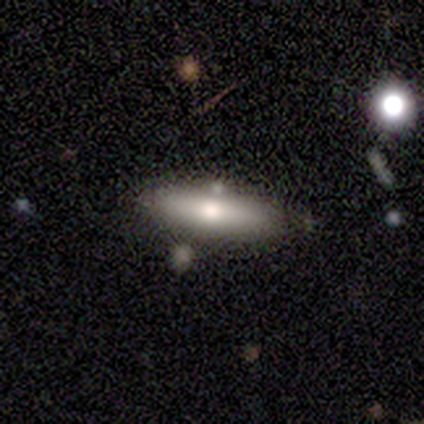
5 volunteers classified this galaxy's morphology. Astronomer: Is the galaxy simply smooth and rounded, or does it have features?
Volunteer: featured or disk — 60% (runner-up: smooth, 40%).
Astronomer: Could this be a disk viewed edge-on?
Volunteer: no — 67%.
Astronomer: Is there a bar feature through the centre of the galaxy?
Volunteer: no — 100%.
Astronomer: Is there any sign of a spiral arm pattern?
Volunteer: no — 100%.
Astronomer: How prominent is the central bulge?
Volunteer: moderate — 50%, tied with small at 50%.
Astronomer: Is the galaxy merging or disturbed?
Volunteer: none — 100%.